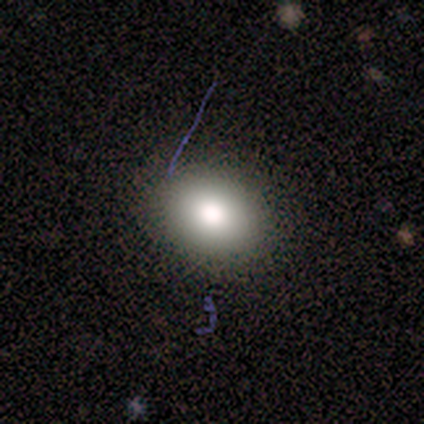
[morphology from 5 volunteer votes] type=smooth (80%); roundness=in between (100%); merging=none (100%).